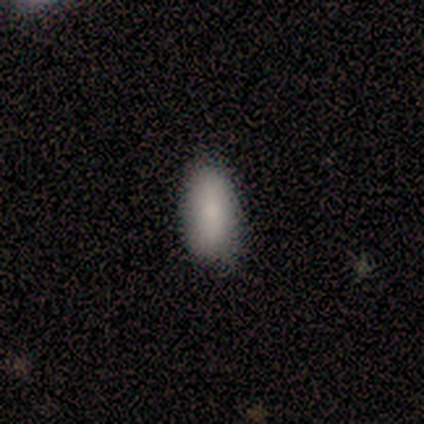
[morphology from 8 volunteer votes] smooth-or-featured: smooth: 88% | star or artifact: 12% | featured or disk: 0%
  how-rounded: in between: 71% | round: 14% | cigar-shaped: 14%
  merging: none: 100% | minor disturbance: 0% | major disturbance: 0% | merger: 0%